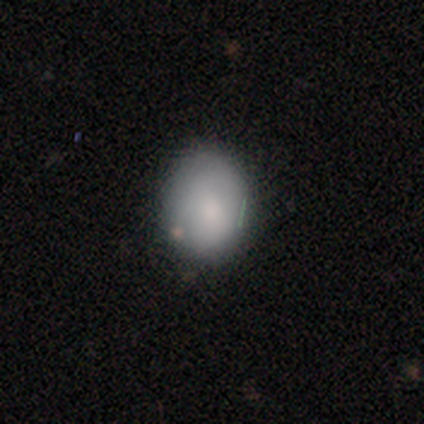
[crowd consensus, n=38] Overall: smooth (92%). How rounded: in between (51%; round 49%). Merging: none (67%; minor disturbance 33%).